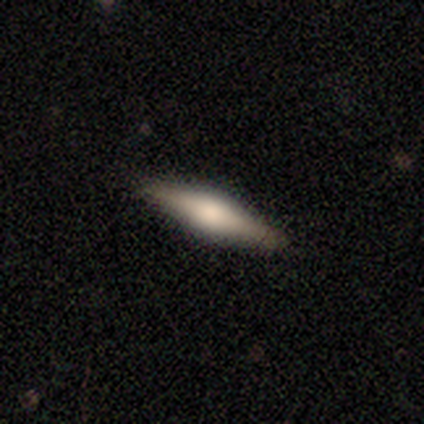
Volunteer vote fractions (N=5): A featured or disk galaxy (80%) viewed edge-on (100%) with a rounded central bulge (100%). Merging: none (100%).